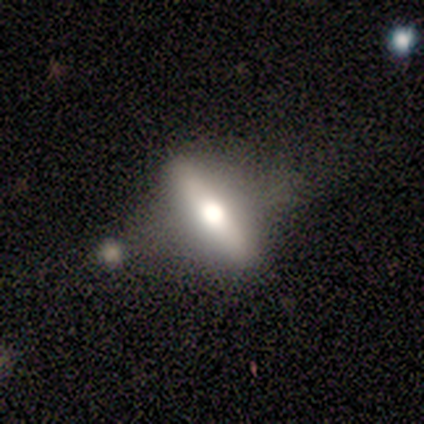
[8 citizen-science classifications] Smooth or featured? 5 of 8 (62%) said featured or disk. Edge-on disk? 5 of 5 (100%) said yes. Edge-on bulge? 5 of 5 (100%) said rounded. Merging? 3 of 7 (43%) said none.